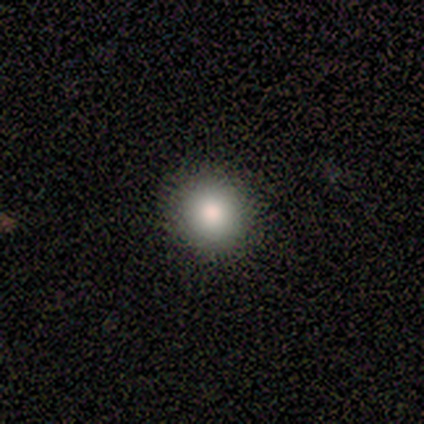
Overall: smooth (80%). How rounded: round (100%). Merging: none (100%).